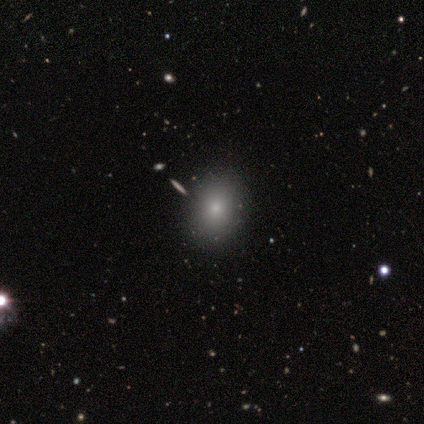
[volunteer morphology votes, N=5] Overall: smooth (60%; star or artifact 40%). How rounded: round (67%; in between 33%). Merging: none (67%; minor disturbance 33%).